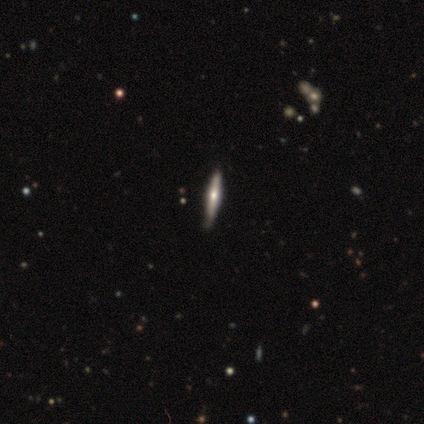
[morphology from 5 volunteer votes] Smooth or featured? 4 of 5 (80%) said featured or disk. Edge-on disk? 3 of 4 (75%) said yes. Edge-on bulge? 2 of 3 (67%) said rounded. Merging? 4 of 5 (80%) said none.